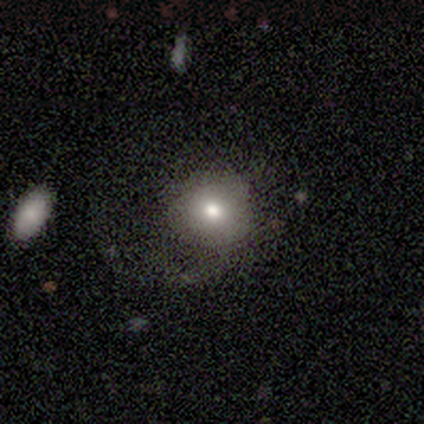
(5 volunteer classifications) This appears to be a smooth galaxy with no disk features (80%) that is round (100%). Merging: none (50%, tied with major disturbance).